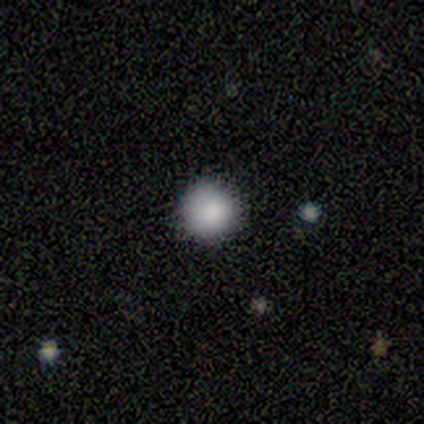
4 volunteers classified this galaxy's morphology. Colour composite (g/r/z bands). It shows a smooth galaxy with no disk features (100%) that is round (100%). Merging: none (75%).